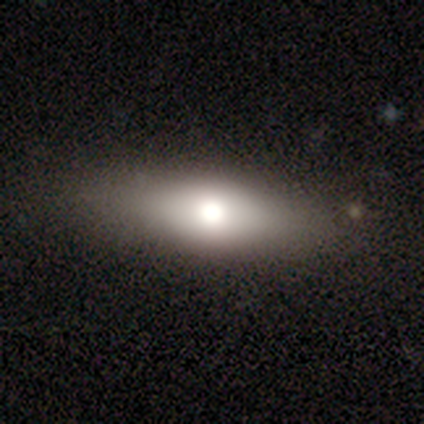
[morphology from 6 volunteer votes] smooth_or_featured: smooth (p=0.67) [alt: star or artifact p=0.33]
how_rounded: in between (p=0.75) [alt: round p=0.25]
merging: none (p=0.50) [tied with: minor disturbance p=0.50]